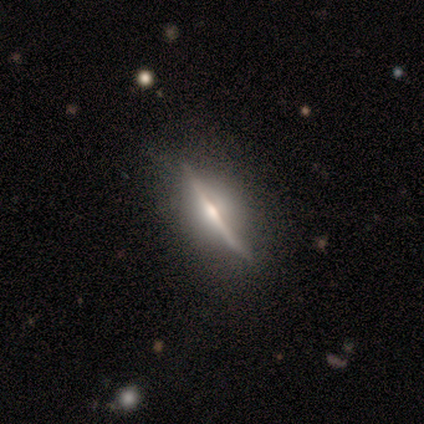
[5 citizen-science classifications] Q: Smooth or featured?
A: featured or disk (80%); runner-up: smooth (20%)
Q: Edge-on disk?
A: yes (100%)
Q: Edge-on bulge?
A: rounded (50%); runner-up: boxy (25%)
Q: Merging?
A: none (80%); runner-up: major disturbance (20%)